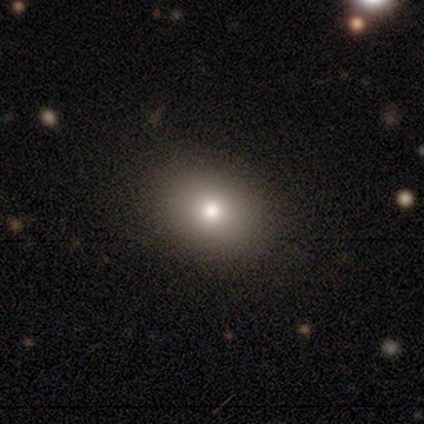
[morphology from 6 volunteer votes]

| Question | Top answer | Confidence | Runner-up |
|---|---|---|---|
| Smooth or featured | smooth | 83% | featured or disk (17%) |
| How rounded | in between | 60% | round (40%) |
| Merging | none | 83% | minor disturbance (17%) |